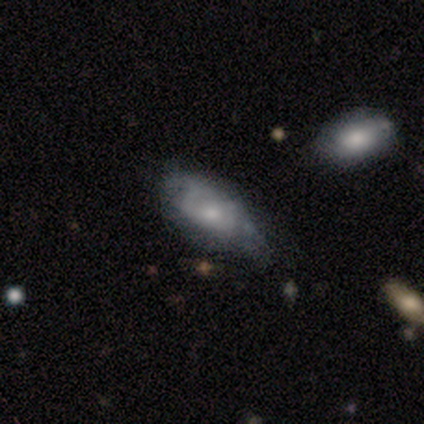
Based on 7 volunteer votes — This is likely a smooth galaxy (71%). How rounded: clearly in between (100%). Merging: likely minor disturbance (71%).